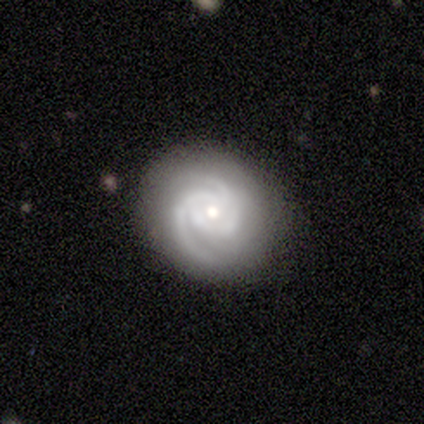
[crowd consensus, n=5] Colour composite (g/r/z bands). It shows a featured or disk galaxy (80%) with no bar (75%), 2 (100%) tight (75%) spiral arms (100%) and a small central bulge (100%). Merging: none (50%, tied with minor disturbance).